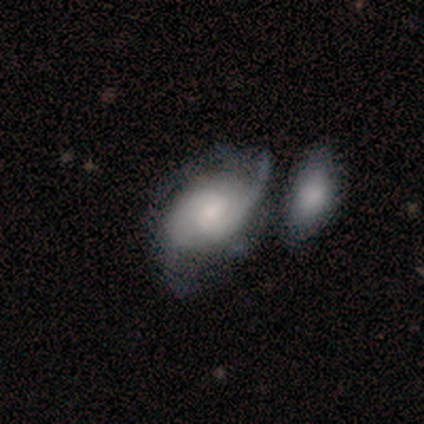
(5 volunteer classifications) Smooth or featured? featured or disk (80%)
Edge-on disk? no (100%)
Bar? no (75%)
Spiral arms? yes (100%)
Spiral winding? medium (75%)
Spiral arm count? 2 (75%)
Bulge size? small (50%)
Merging? none (40%, tied with merger)